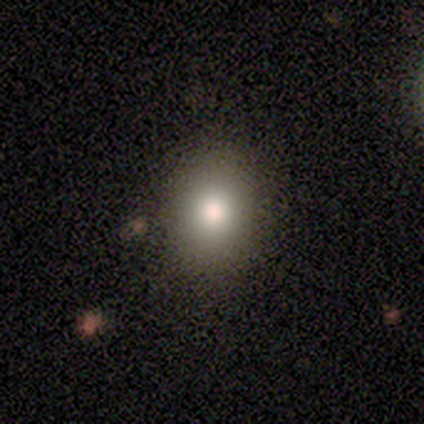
smooth_or_featured: smooth (p=0.80) [alt: star or artifact p=0.20]
how_rounded: round (p=0.50) [tied with: in between p=0.50]
merging: none (p=0.50) [tied with: minor disturbance p=0.50]